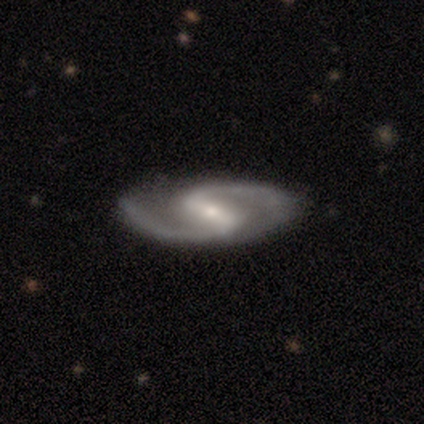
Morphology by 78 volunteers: smooth-or-featured: featured or disk: 96% | smooth: 3% | star or artifact: 1%
  disk-edge-on: no: 99% | yes: 1%
    bar: strong: 76% | weak: 20% | no: 4%
    has-spiral-arms: yes: 99% | no: 1%
      spiral-winding: medium: 59% | loose: 27% | tight: 14%
      spiral-arm-count: 2: 97% | 1: 3% | 3: 0% | 4: 0% | more than 4: 0% | can't tell: 0%
    bulge-size: small: 64% | moderate: 31% | large: 4% | dominant: 1% | none: 0%
  merging: none: 53% | minor disturbance: 1% | major disturbance: 1% | merger: 0%